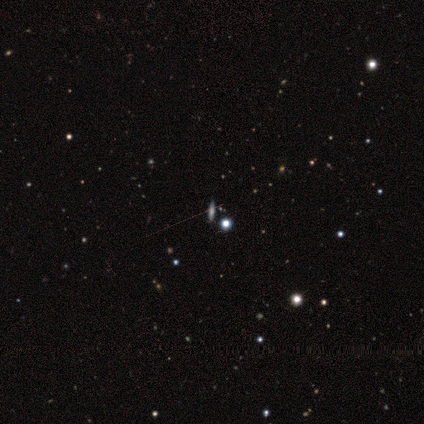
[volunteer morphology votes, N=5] smooth-or-featured: star or artifact: 60% | featured or disk: 40% | smooth: 0%